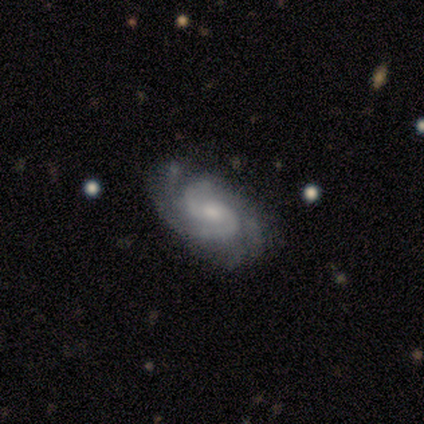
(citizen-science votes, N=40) featured or disk 85%, smooth 12%, star or artifact 2%. Down the decision tree: edge-on disk — no (100%); bar — no (56%); spiral arms — yes (100%); spiral arm count — 2 (62%); spiral winding — tight (47%); bulge size — moderate (44%, tied with small); merging — none (59%).